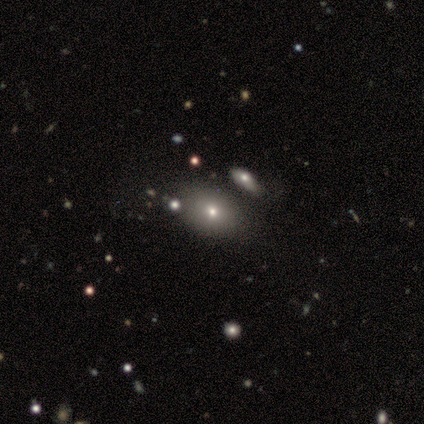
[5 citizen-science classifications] Q: Smooth or featured?
A: smooth (100%)
Q: How rounded?
A: in between (80%); runner-up: round (20%)
Q: Merging?
A: none (40%); tied with: merger (40%)